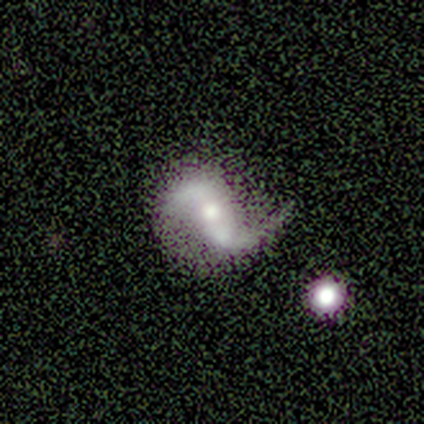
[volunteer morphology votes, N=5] Smooth or featured?
  - featured or disk: 100% *
  - smooth: 0%
  - star or artifact: 0%
Edge-on disk?
  - no: 100% *
  - yes: 0%
Bar?
  - weak: 40% * (tied)
  - no: 40% * (tied)
  - strong: 20%
Spiral arms?
  - yes: 100% *
  - no: 0%
Spiral winding?
  - loose: 60% *
  - medium: 40%
  - tight: 0%
Spiral arm count?
  - 2: 100% *
  - 1: 0%
  - 3: 0%
  - 4: 0%
  - more than 4: 0%
  - can't tell: 0%
Bulge size?
  - moderate: 60% *
  - small: 40%
  - dominant: 0%
  - large: 0%
  - none: 0%
Merging?
  - none: 60% *
  - merger: 40%
  - minor disturbance: 0%
  - major disturbance: 0%